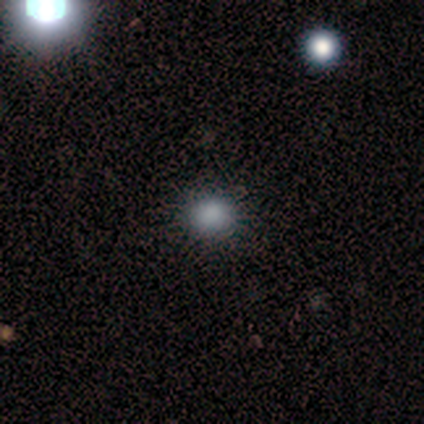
Morphology: type=smooth (71%); roundness=round (74%); merging=none (90%).